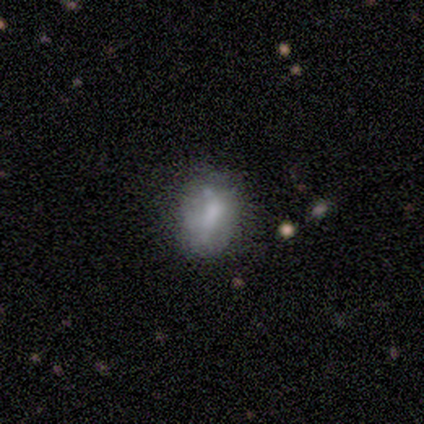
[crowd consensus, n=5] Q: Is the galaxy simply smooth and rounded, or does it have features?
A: featured or disk — 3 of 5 (60%).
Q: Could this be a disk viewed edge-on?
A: no — 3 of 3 (100%).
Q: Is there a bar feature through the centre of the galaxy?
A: no — 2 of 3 (67%).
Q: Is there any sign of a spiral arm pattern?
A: no — 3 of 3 (100%).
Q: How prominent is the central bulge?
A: none — 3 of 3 (100%).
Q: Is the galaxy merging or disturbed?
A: none — 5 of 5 (100%).